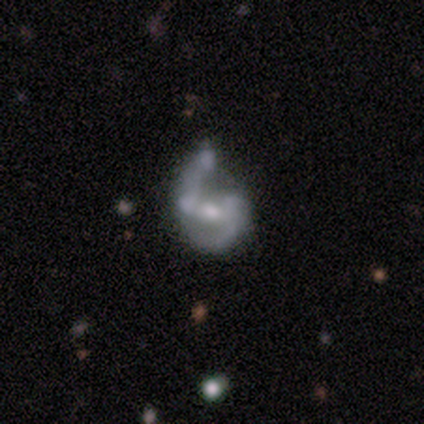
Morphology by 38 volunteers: Overall: featured or disk (89%). Edge-on disk: no (97%). Bar: weak (52%; no 36%). Spiral arms: yes (73%). Spiral arm count: 2 (92%). Spiral winding: loose (54%; medium 38%). Bulge size: moderate (52%; small 36%). Merging: major disturbance (39%; minor disturbance 32%).